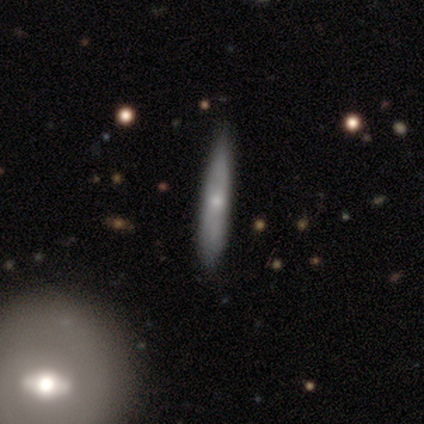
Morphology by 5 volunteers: Overall: featured or disk (80%). Edge-on disk: yes (100%). Edge-on bulge: rounded (100%). Merging: none (100%).